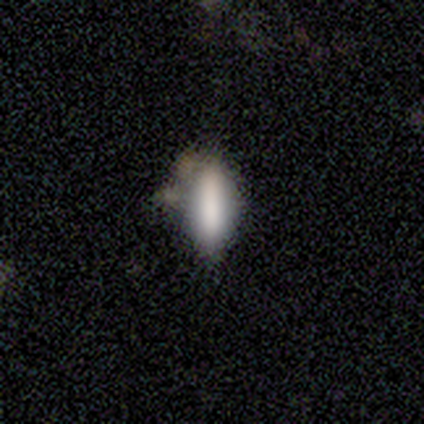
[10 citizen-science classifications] Overall: smooth (80%). How rounded: in between (50%, tied with cigar-shaped). Merging: minor disturbance (44%; none 33%).